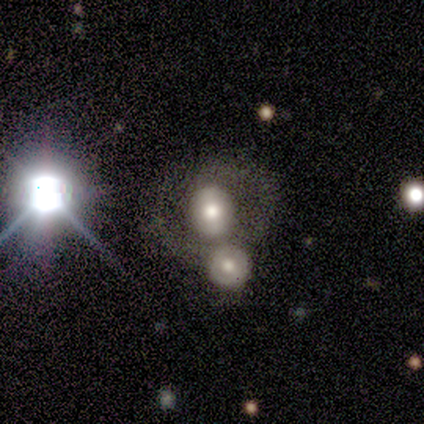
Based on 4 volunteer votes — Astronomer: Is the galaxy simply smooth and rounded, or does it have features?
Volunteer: smooth — 75%.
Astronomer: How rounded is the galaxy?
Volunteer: round — 100%.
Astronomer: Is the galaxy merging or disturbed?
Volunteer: minor disturbance — 50%.